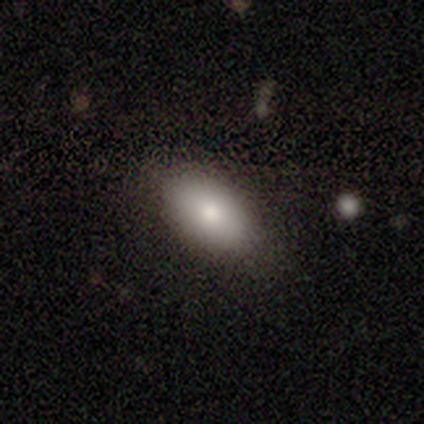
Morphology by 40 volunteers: smooth-or-featured: smooth: 88% | featured or disk: 8% | star or artifact: 5%
  how-rounded: in between: 100% | round: 0% | cigar-shaped: 0%
  merging: none: 87% | minor disturbance: 11% | major disturbance: 3% | merger: 0%